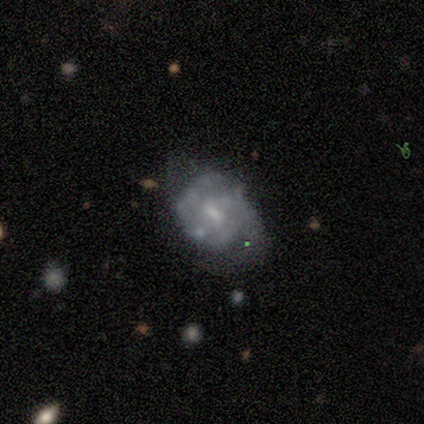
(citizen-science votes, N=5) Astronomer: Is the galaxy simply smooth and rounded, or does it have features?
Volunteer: featured or disk — 80%.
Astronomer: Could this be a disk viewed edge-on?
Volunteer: no — 100%.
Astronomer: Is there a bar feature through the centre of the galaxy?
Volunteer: no — 75%.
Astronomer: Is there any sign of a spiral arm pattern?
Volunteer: no — 100%.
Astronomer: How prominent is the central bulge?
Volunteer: small — 75%.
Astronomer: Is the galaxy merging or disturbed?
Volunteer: minor disturbance — 75%.